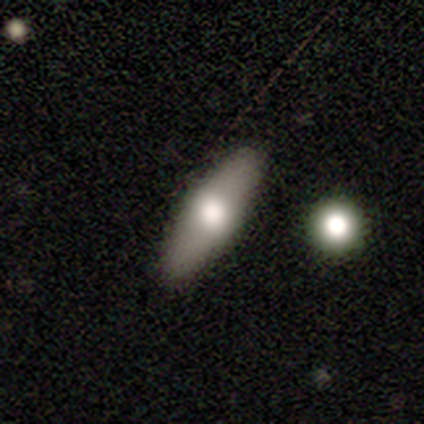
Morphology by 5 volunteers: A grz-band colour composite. It shows a smooth galaxy with no disk features (100%) that is in between round and cigar-shaped (80%). Merging: none (100%).